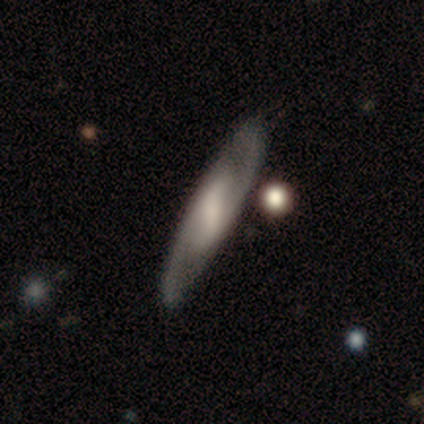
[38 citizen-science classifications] Volunteers were most divided on "bulge size": none: 46%, moderate: 29%, small: 14%, large: 11%, dominant: 0%. More confident: edge-on disk — no (93%); spiral arm count — 2 (92%); spiral arms — yes (86%); merging — none (81%); smooth or featured — featured or disk (79%); bar — strong (64%); spiral winding — medium (58%).